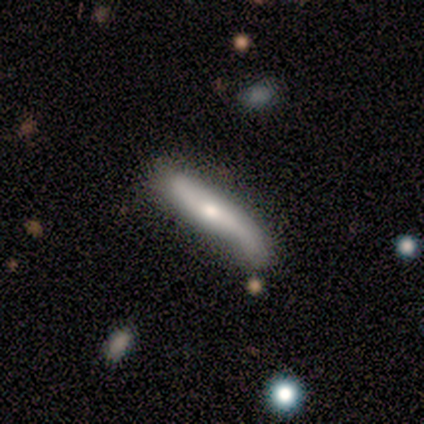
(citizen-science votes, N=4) Morphology: type=smooth (50%, tied with featured or disk); roundness=cigar-shaped (100%); merging=major disturbance (50%).